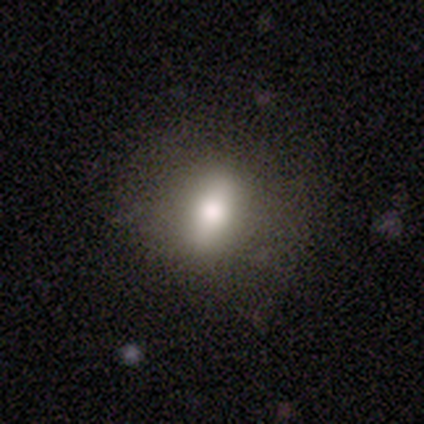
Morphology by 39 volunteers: type=smooth (74%); roundness=in between (66%); merging=none (95%).